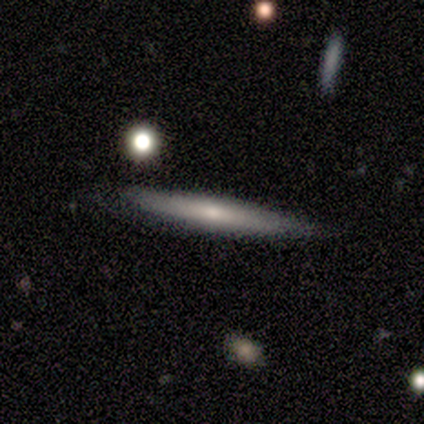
smooth-or-featured: featured or disk: 80% | smooth: 20% | star or artifact: 0%
  disk-edge-on: yes: 100% | no: 0%
    edge-on-bulge: none: 50% (tied) | rounded: 50% (tied) | boxy: 0%
  merging: none: 100% | minor disturbance: 0% | major disturbance: 0% | merger: 0%